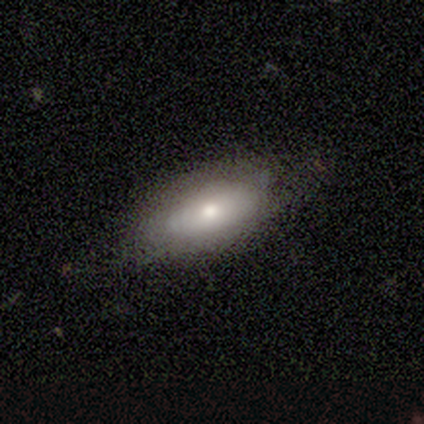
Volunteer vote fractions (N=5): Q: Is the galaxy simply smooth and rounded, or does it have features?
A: featured or disk — 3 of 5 (60%).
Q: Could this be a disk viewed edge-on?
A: no — 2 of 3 (67%).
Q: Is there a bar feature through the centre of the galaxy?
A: no — 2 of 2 (100%).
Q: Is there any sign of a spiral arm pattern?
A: yes — 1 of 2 (50%, tied with no).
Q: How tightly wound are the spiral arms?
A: tight — 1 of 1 (100%).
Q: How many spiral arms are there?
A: can't tell — 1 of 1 (100%).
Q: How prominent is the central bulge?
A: moderate — 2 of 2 (100%).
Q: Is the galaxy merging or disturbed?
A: none — 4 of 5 (80%).